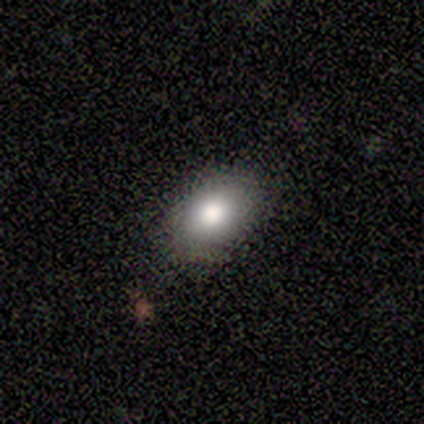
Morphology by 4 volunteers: Overall: smooth (75%). How rounded: in between (67%; round 33%). Merging: none (67%; minor disturbance 33%).